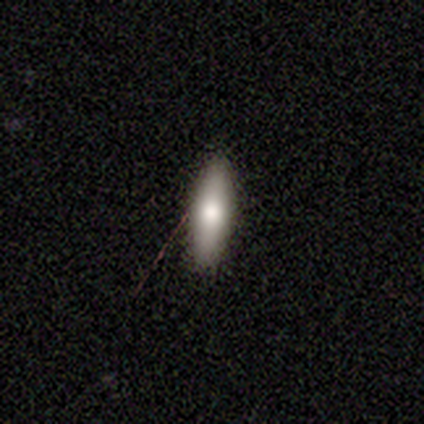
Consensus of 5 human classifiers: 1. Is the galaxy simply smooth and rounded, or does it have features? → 100% smooth, 0% featured or disk, 0% star or artifact.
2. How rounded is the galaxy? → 80% cigar-shaped, 20% in between, 0% round.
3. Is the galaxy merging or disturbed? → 80% none, 20% minor disturbance, 0% major disturbance, 0% merger.